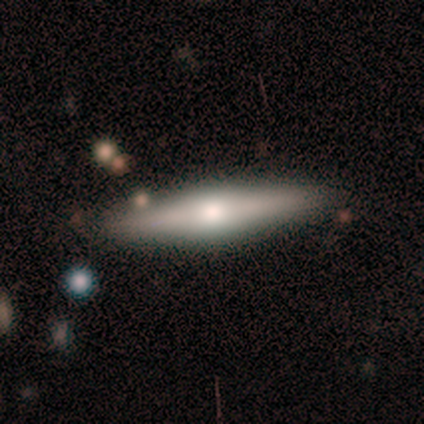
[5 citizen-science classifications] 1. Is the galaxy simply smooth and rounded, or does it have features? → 60% smooth, 40% featured or disk, 0% star or artifact.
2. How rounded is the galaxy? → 100% cigar-shaped, 0% round, 0% in between.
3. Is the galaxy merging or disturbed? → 80% none, 20% minor disturbance, 0% major disturbance, 0% merger.